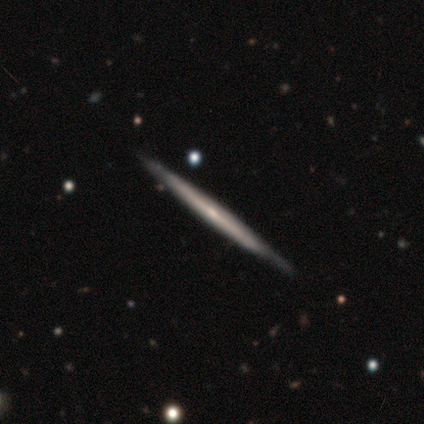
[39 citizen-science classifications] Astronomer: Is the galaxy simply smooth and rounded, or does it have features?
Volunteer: featured or disk — 69%.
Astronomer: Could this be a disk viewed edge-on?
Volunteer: yes — 93%.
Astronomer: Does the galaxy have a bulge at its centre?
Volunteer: none — 72%.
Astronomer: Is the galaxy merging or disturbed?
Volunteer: none — 82%.